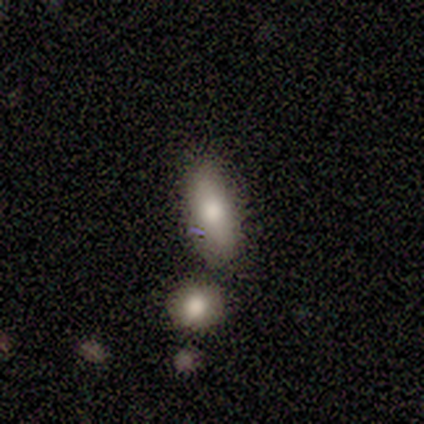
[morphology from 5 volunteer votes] Smooth or featured? smooth (100%)
How rounded? in between (80%)
Merging? none (80%)